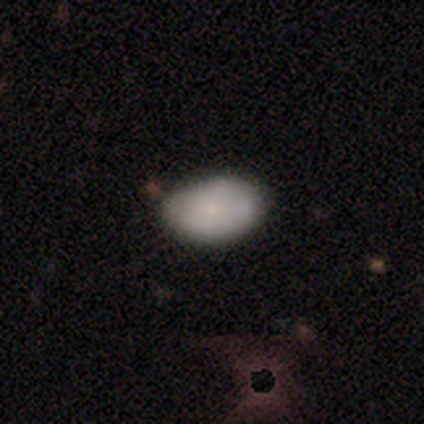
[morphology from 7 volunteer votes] Smooth or featured? 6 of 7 (86%) said smooth. How rounded? 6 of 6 (100%) said in between. Merging? 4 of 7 (57%) said none.